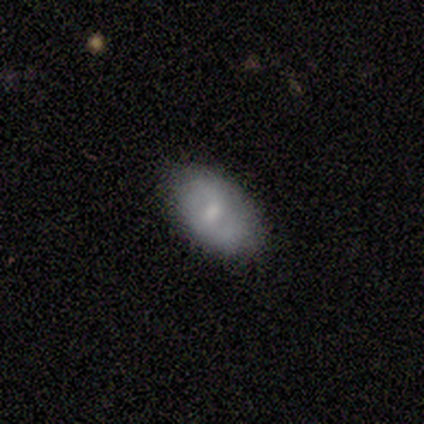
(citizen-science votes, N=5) Morphology: type=smooth (60%); roundness=in between (100%); merging=none (100%).